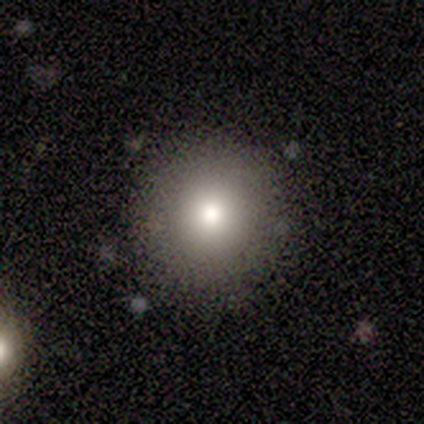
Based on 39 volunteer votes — smooth_or_featured: smooth (p=0.64) [alt: star or artifact p=0.23]
how_rounded: round (p=0.96) [alt: in between p=0.04]
merging: none (p=0.80) [alt: minor disturbance p=0.13]